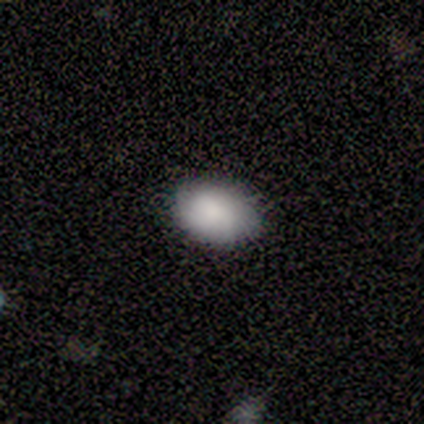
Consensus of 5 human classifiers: Smooth or featured?
  - smooth: 100% *
  - featured or disk: 0%
  - star or artifact: 0%
How rounded?
  - in between: 100% *
  - round: 0%
  - cigar-shaped: 0%
Merging?
  - none: 80% *
  - minor disturbance: 20%
  - major disturbance: 0%
  - merger: 0%